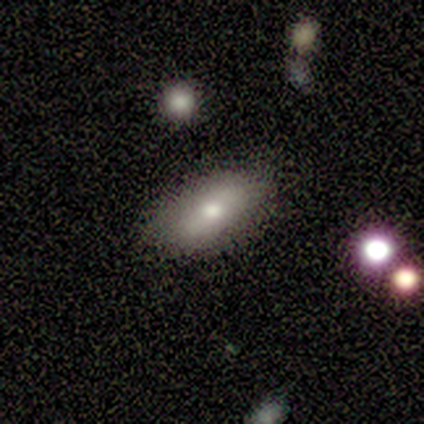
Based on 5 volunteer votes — A smooth galaxy with no disk features (60%) that is in between round and cigar-shaped (67%). Merging: none (50%, tied with minor disturbance).